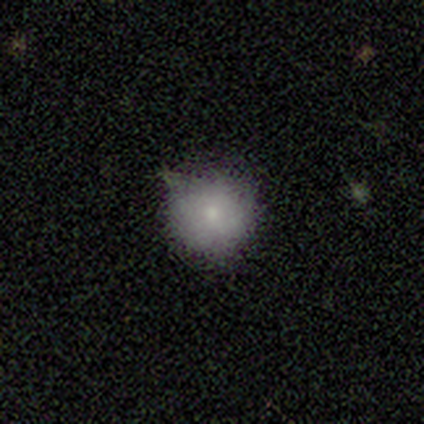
This is clearly a smooth galaxy (100%). How rounded: clearly round (100%). Merging: clearly none (100%).